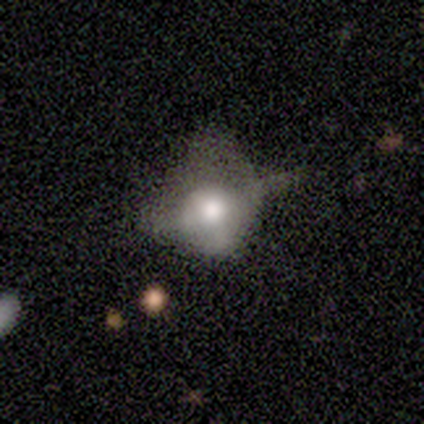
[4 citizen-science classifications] featured or disk 75%, smooth 25%, star or artifact 0%. Down the decision tree: edge-on disk — no (67%); bar — strong (50%, tied with no); spiral arms — no (100%); bulge size — large (100%); merging — none (50%).